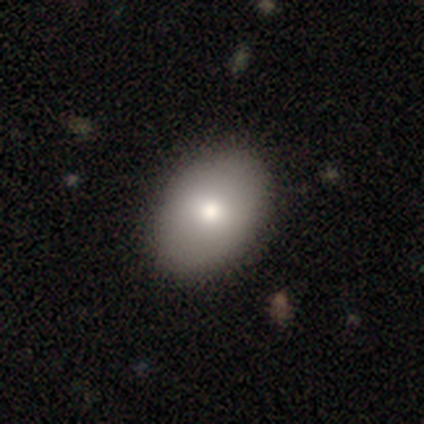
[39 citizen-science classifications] A smooth galaxy with no disk features (85%) that is in between round and cigar-shaped (85%). Merging: none (53%).